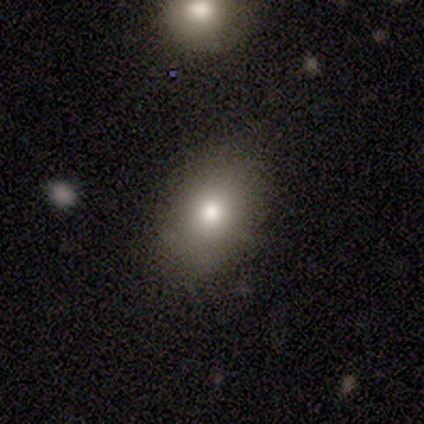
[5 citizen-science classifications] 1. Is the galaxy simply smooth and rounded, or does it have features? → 80% smooth, 20% featured or disk, 0% star or artifact.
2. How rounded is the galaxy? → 75% in between, 25% round, 0% cigar-shaped.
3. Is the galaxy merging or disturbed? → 100% none, 0% minor disturbance, 0% major disturbance, 0% merger.